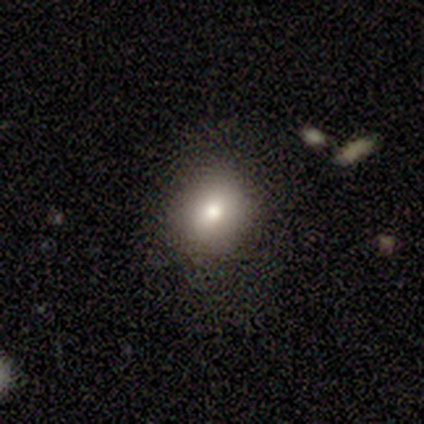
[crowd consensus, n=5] Q: Smooth or featured?
A: smooth (60%); runner-up: featured or disk (20%)
Q: How rounded?
A: round (67%); runner-up: in between (33%)
Q: Merging?
A: none (50%); runner-up: minor disturbance (25%)